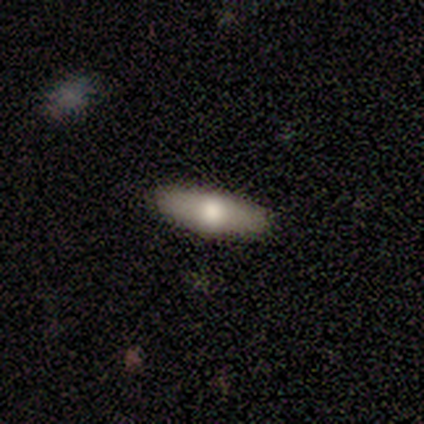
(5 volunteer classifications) smooth_or_featured: featured or disk (p=0.60) [alt: smooth p=0.40]
disk_edge_on: yes (p=1.00)
edge_on_bulge: rounded (p=0.67) [alt: none p=0.33]
merging: none (p=1.00)